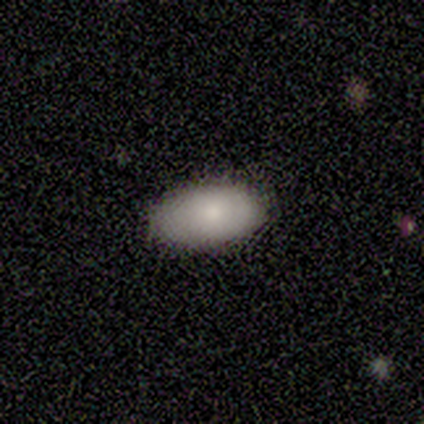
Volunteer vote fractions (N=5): smooth_or_featured: smooth (p=1.00)
how_rounded: in between (p=1.00)
merging: none (p=0.60) [alt: minor disturbance p=0.20]